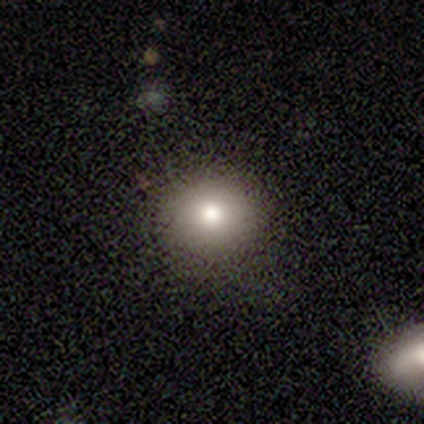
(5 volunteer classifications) Overall: smooth (80%). How rounded: round (100%). Merging: none (80%).